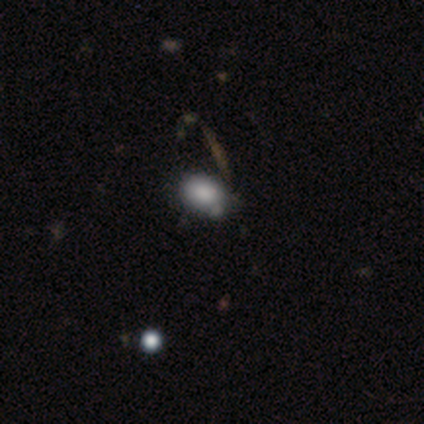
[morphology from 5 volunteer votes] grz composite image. It shows a smooth galaxy with no disk features (60%) that is in between round and cigar-shaped (100%). Merging: none (75%).